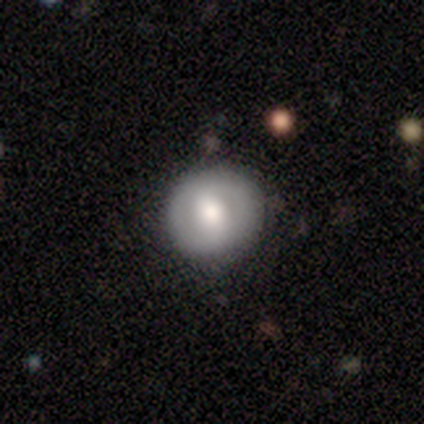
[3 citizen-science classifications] A featured or disk galaxy (67%) with a weak bar (50%, tied with no), no spiral arms (100%) and a moderate central bulge (100%). Merging: minor disturbance (67%).